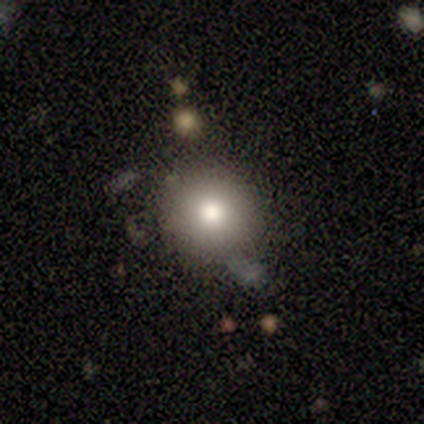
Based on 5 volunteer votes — smooth 60%, star or artifact 40%, featured or disk 0%. Down the decision tree: how rounded — round (67%); merging — none (67%).